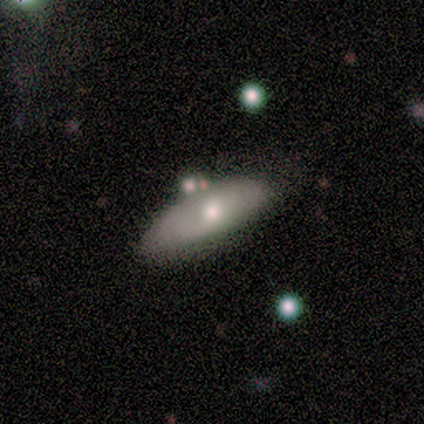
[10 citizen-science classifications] smooth 60%, featured or disk 40%, star or artifact 0%. Down the decision tree: how rounded — in between (83%); merging — none (40%, tied with merger).